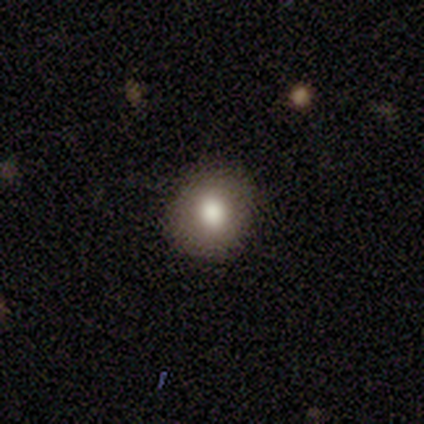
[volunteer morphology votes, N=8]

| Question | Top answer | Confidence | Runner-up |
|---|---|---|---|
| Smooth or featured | smooth | 75% | featured or disk (25%) |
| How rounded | in between | 67% | round (33%) |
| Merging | none | 88% | minor disturbance (12%) |